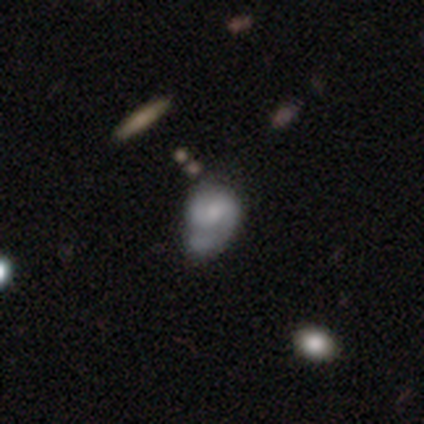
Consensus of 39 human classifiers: This appears to be a featured or disk galaxy (62%) with no bar (71%), 2 (76%) medium (47%) spiral arms (71%) and a small central bulge (46%). Merging: minor disturbance (45%).